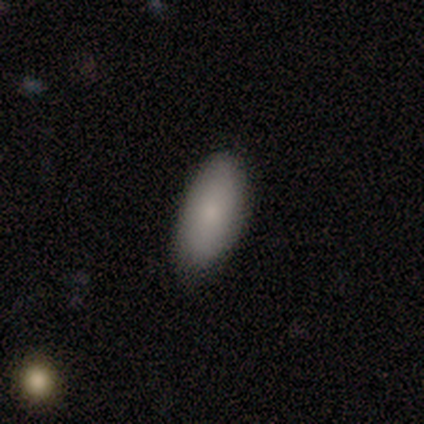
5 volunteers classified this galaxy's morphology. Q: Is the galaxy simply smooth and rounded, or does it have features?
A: smooth — 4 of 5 (80%).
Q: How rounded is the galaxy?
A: in between — 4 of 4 (100%).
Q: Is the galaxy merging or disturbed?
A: none — 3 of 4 (75%).